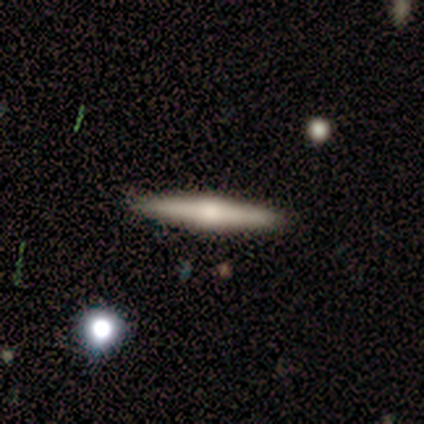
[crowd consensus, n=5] Smooth or featured: featured or disk — 100%
Edge-on disk: yes — 100%
Edge-on bulge: rounded — 80% (none — 20%)
Merging: none — 100%